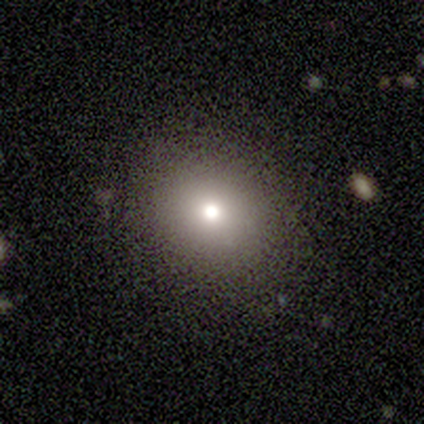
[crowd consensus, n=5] A smooth galaxy with no disk features (60%) that is round (67%).

Vote fractions:
- Smooth or featured? smooth: 60% / featured or disk: 20% / star or artifact: 20%
- How rounded? round: 67% / in between: 33% / cigar-shaped: 0%
- Merging? none: 100% / minor disturbance: 0% / major disturbance: 0% / merger: 0%